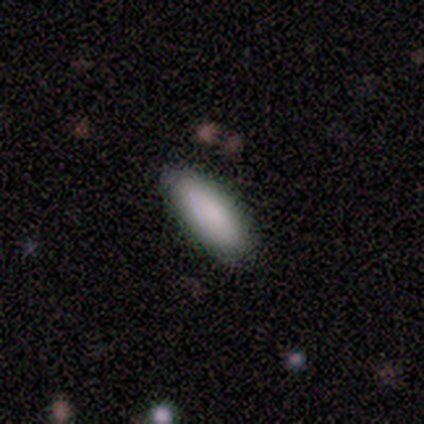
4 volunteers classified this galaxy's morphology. Volunteers were most divided on "how rounded" (2-way tie): in between: 50%, cigar-shaped: 50%, round: 0%. More confident: smooth or featured — smooth (100%); merging — none (100%).